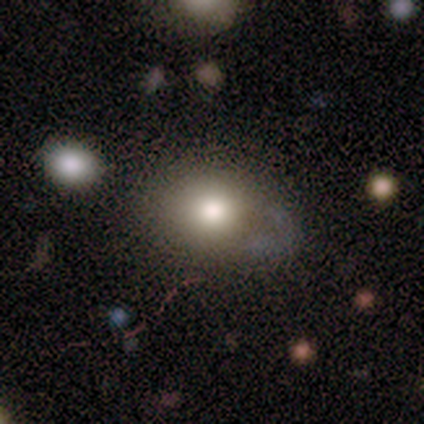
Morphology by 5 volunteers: type=smooth (100%); roundness=round (60%); merging=none (60%).